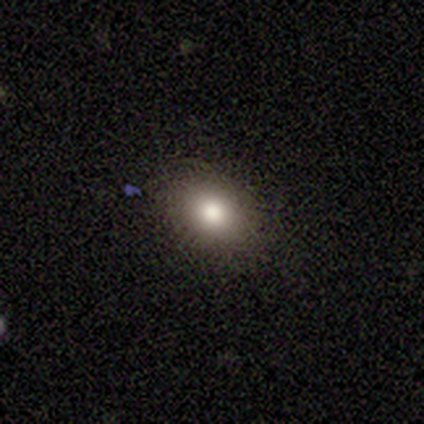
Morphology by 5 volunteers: Consensus on every question: smooth or featured — smooth (100%); how rounded — in between (100%); merging — none (100%).